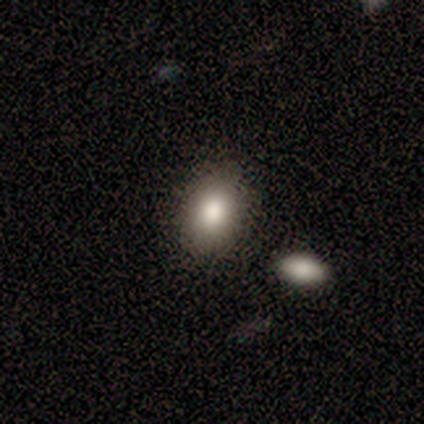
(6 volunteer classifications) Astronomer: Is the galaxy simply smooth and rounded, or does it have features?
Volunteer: smooth — 100%.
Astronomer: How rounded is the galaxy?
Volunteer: in between — 83%.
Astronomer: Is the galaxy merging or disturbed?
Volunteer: none — 83%.